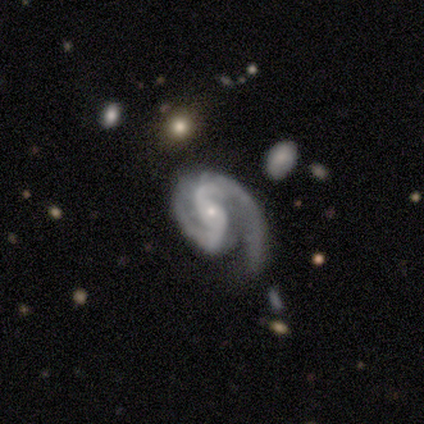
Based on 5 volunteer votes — A featured or disk galaxy (100%) with no bar (60%), 2 (100%) medium (60%) spiral arms (100%) and a small central bulge (80%). Merging: none (40%, tied with major disturbance).